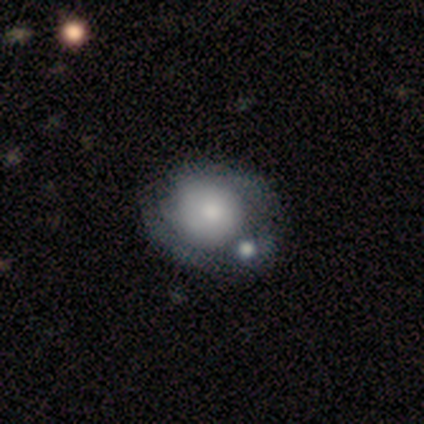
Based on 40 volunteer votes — A smooth galaxy with no disk features (48%, tied with featured or disk) that is round (84%). Merging: merger (32%).